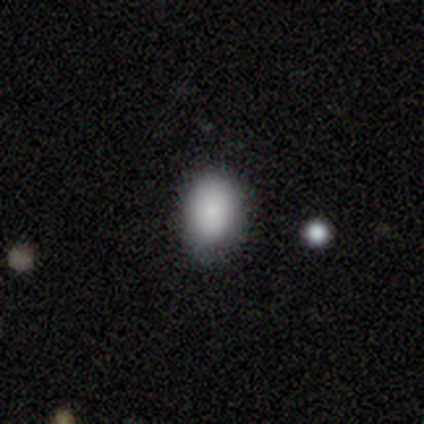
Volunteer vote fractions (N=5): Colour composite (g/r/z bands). It shows a smooth galaxy with no disk features (100%) that is in between round and cigar-shaped (100%). Merging: none (80%).